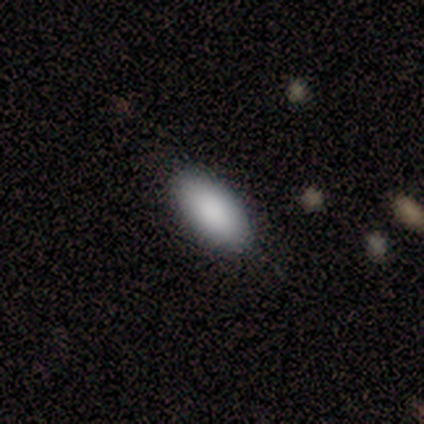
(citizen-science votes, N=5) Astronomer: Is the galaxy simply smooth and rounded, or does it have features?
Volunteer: smooth — 80%.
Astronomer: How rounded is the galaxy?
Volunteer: in between — 100%.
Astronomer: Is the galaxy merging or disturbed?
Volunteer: none — 100%.